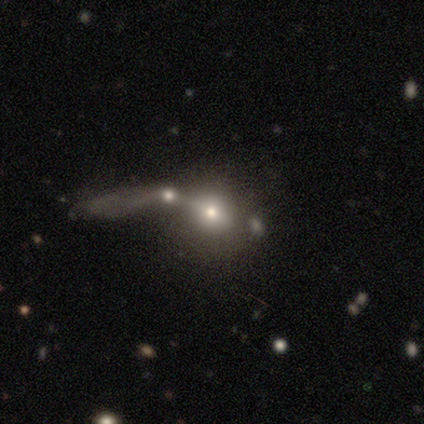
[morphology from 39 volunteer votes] Smooth or featured: smooth — 67% (featured or disk — 26%)
How rounded: round — 77% (in between — 23%)
Merging: merger — 58% (major disturbance — 17%)